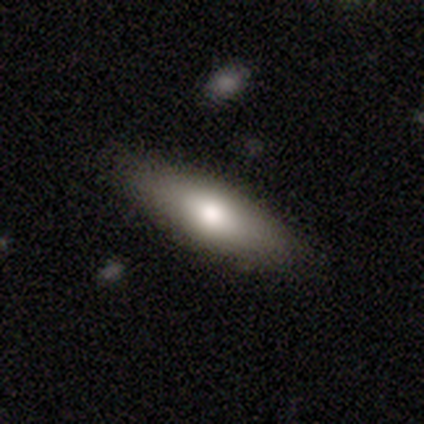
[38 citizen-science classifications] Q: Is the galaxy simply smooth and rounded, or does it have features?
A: smooth — 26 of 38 (68%).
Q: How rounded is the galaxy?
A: in between — 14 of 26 (54%).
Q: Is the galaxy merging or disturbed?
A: none — 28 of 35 (80%).